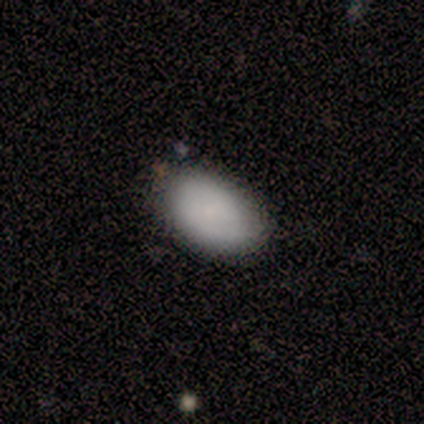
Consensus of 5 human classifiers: Smooth or featured: smooth — 100%
How rounded: in between — 100%
Merging: none — 100%